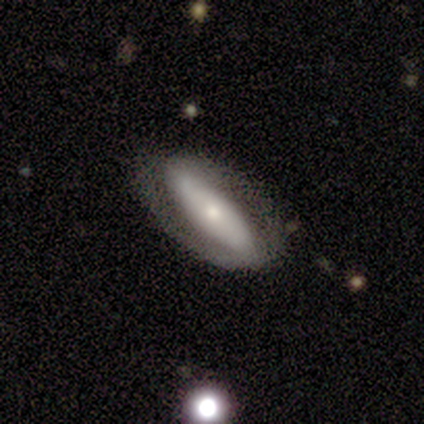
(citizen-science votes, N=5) Q: Smooth or featured?
A: featured or disk (80%); runner-up: smooth (20%)
Q: Edge-on disk?
A: no (75%); runner-up: yes (25%)
Q: Bar?
A: no (100%)
Q: Spiral arms?
A: yes (67%); runner-up: no (33%)
Q: Spiral winding?
A: tight (50%); tied with: loose (50%)
Q: Spiral arm count?
A: 2 (50%); tied with: can't tell (50%)
Q: Bulge size?
A: small (67%); runner-up: moderate (33%)
Q: Merging?
A: none (100%)